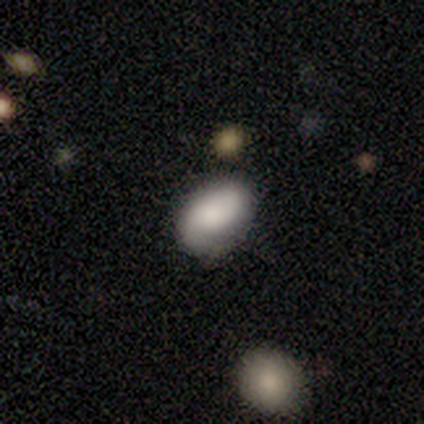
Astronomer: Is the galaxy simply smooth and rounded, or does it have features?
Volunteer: smooth — 69%.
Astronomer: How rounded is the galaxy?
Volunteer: in between — 85%.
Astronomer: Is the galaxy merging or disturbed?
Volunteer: none — 68%.